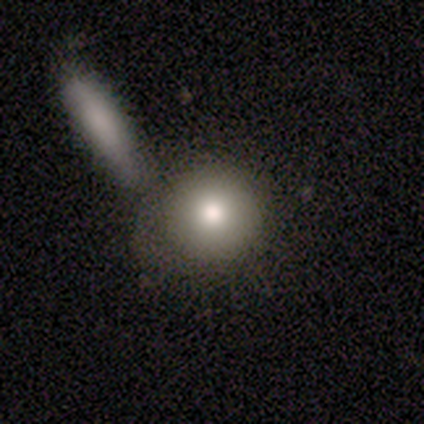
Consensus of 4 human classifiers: Smooth or featured: smooth — 100%
How rounded: round — 75% (in between — 25%)
Merging: none — 75% (merger — 25%)